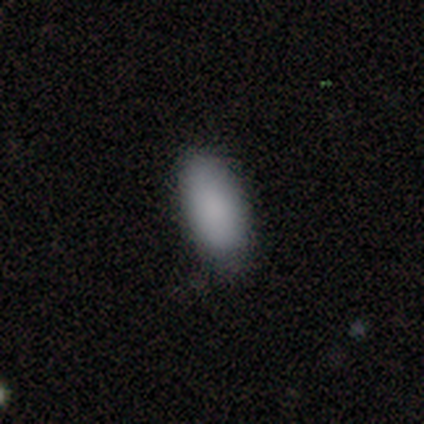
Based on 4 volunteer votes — smooth-or-featured: smooth: 100% | featured or disk: 0% | star or artifact: 0%
  how-rounded: in between: 100% | round: 0% | cigar-shaped: 0%
  merging: none: 75% | minor disturbance: 25% | major disturbance: 0% | merger: 0%